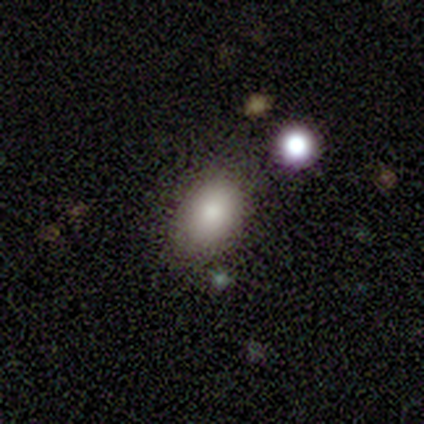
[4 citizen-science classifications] smooth_or_featured: smooth (p=1.00)
how_rounded: in between (p=1.00)
merging: none (p=0.75) [alt: minor disturbance p=0.25]